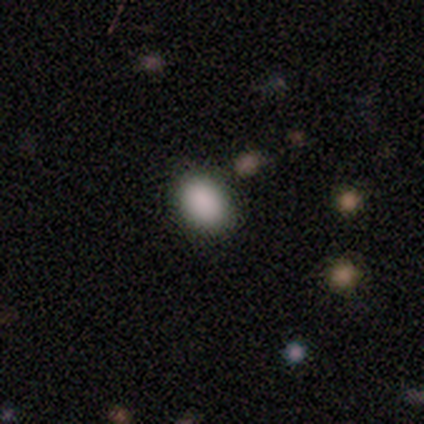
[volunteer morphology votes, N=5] A smooth galaxy with no disk features (80%) that is round (50%, tied with in between).

Vote fractions:
- Smooth or featured? smooth: 80% / star or artifact: 20% / featured or disk: 0%
- How rounded? round: 50% (tied) / in between: 50% (tied) / cigar-shaped: 0%
- Merging? none: 100% / minor disturbance: 0% / major disturbance: 0% / merger: 0%